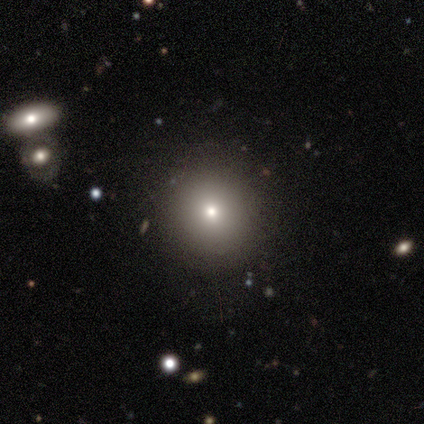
This is likely a smooth galaxy (75%). How rounded: clearly round (90%). Merging: clearly none (94%).